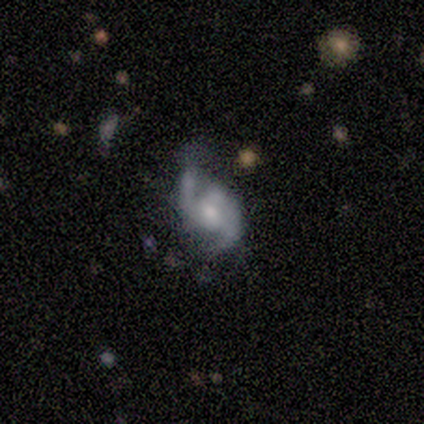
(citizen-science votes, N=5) smooth-or-featured: featured or disk: 100% | smooth: 0% | star or artifact: 0%
  disk-edge-on: no: 100% | yes: 0%
    bar: weak: 60% | no: 40% | strong: 0%
    has-spiral-arms: yes: 100% | no: 0%
      spiral-winding: medium: 60% | loose: 40% | tight: 0%
      spiral-arm-count: 2: 100% | 1: 0% | 3: 0% | 4: 0% | more than 4: 0% | can't tell: 0%
    bulge-size: moderate: 60% | large: 40% | dominant: 0% | small: 0% | none: 0%
  merging: none: 100% | minor disturbance: 0% | major disturbance: 0% | merger: 0%